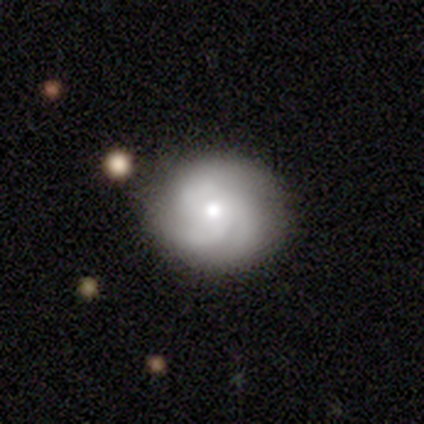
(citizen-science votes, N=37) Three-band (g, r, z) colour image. It shows a featured or disk galaxy (68%) with no bar (84%), 3 (83%) medium (52%) spiral arms (92%) and a moderate central bulge (68%). Merging: none (83%).